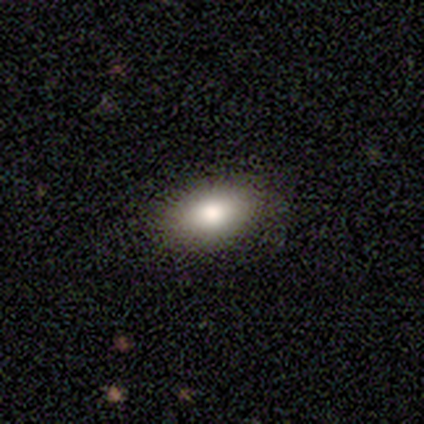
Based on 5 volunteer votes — Smooth or featured? 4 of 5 (80%) said smooth. How rounded? 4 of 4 (100%) said in between. Merging? 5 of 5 (100%) said none.